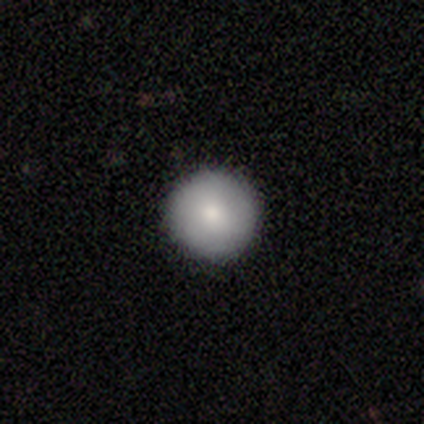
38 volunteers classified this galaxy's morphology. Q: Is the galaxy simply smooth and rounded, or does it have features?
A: smooth — 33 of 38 (87%).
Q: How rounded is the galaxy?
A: round — 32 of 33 (97%).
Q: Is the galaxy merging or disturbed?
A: none — 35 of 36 (97%).